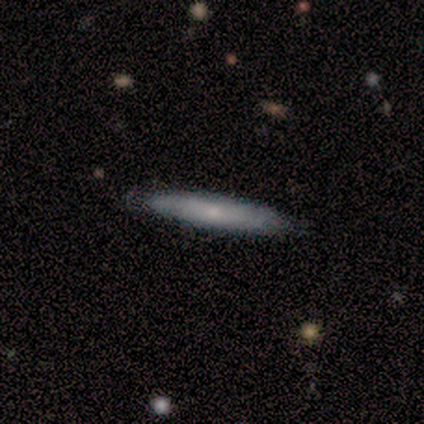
Q: Smooth or featured?
A: featured or disk (80%); runner-up: smooth (20%)
Q: Edge-on disk?
A: yes (100%)
Q: Edge-on bulge?
A: none (50%); runner-up: boxy (25%)
Q: Merging?
A: none (80%); runner-up: minor disturbance (20%)